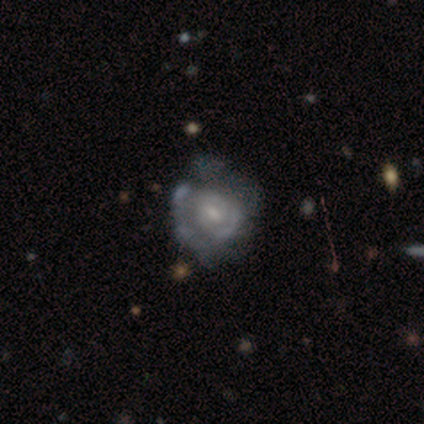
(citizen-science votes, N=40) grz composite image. It shows a featured or disk galaxy (92%) with a weak bar (49%, tied with no), tight (71%) spiral arms (76%) and a small central bulge (65%). Merging: none (28%, tied with minor disturbance).